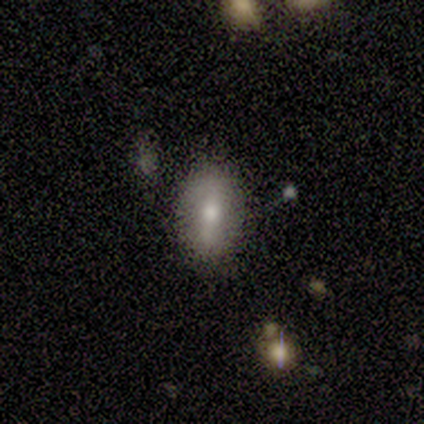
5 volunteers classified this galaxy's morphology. A smooth galaxy with no disk features (80%) that is in between round and cigar-shaped (100%). Merging: none (80%).